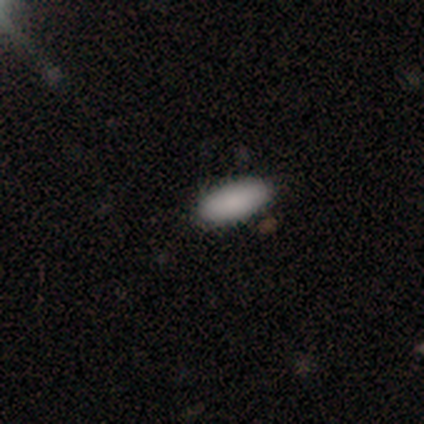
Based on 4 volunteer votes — Overall: smooth (75%). How rounded: in between (100%). Merging: none (100%).